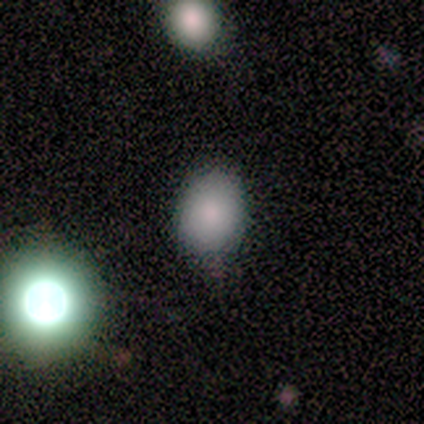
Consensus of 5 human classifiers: Volunteers were most divided on "how rounded": round: 60%, in between: 40%, cigar-shaped: 0%. More confident: smooth or featured — smooth (100%); merging — none (100%).